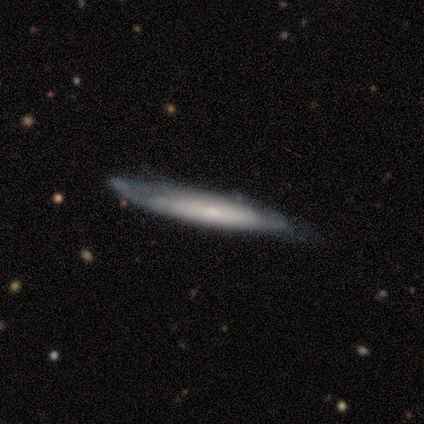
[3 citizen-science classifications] A smooth galaxy with no disk features (100%) that is cigar-shaped (100%).

Vote fractions:
- Smooth or featured? smooth: 100% / featured or disk: 0% / star or artifact: 0%
- How rounded? cigar-shaped: 100% / round: 0% / in between: 0%
- Merging? minor disturbance: 67% / none: 33% / major disturbance: 0% / merger: 0%